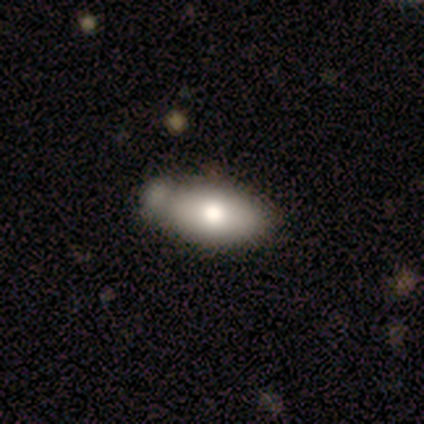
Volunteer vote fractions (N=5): Overall: smooth (80%). How rounded: in between (75%). Merging: minor disturbance (60%; none 20%).